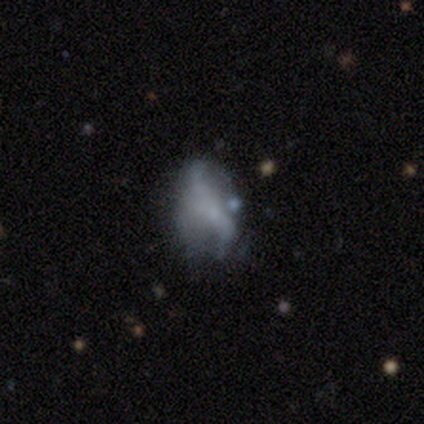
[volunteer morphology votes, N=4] Q: Smooth or featured?
A: smooth (100%)
Q: How rounded?
A: in between (75%); runner-up: round (25%)
Q: Merging?
A: major disturbance (75%); runner-up: minor disturbance (25%)